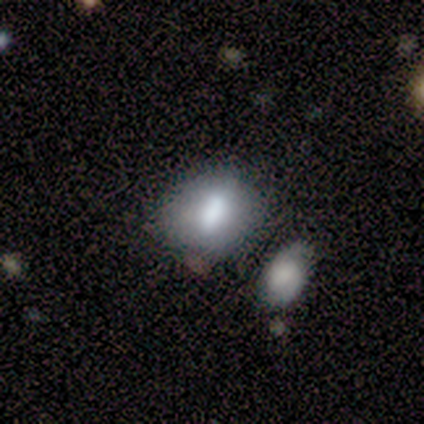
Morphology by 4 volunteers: This appears to be a smooth galaxy with no disk features (50%, tied with featured or disk) that is round (50%, tied with in between). Merging: none (75%).